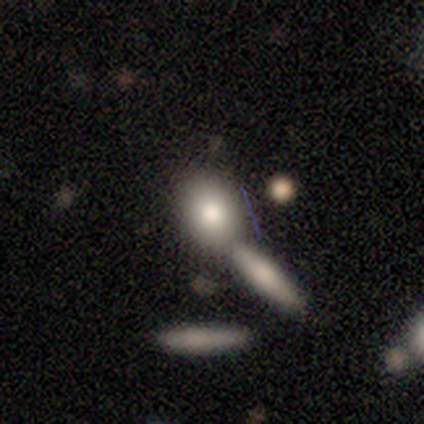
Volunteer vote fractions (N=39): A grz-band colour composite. It shows a smooth galaxy with no disk features (72%) that is round (68%). Merging: merger (67%).